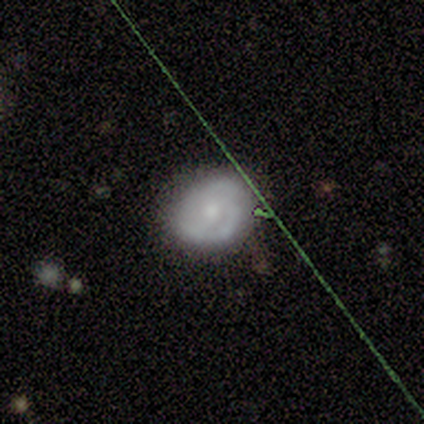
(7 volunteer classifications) Smooth or featured?
  - featured or disk: 100% *
  - smooth: 0%
  - star or artifact: 0%
Edge-on disk?
  - no: 100% *
  - yes: 0%
Bar?
  - no: 100% *
  - strong: 0%
  - weak: 0%
Spiral arms?
  - yes: 71% *
  - no: 29%
Spiral winding?
  - medium: 60% *
  - tight: 20%
  - loose: 20%
Spiral arm count?
  - 2: 80% *
  - can't tell: 20%
  - 1: 0%
  - 3: 0%
  - 4: 0%
  - more than 4: 0%
Bulge size?
  - small: 57% *
  - moderate: 43%
  - dominant: 0%
  - large: 0%
  - none: 0%
Merging?
  - none: 71% *
  - minor disturbance: 29%
  - major disturbance: 0%
  - merger: 0%